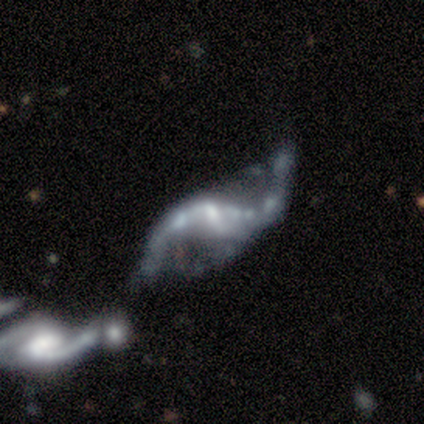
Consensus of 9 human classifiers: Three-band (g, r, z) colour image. It shows a featured or disk galaxy (89%) with no bar (43%), 2 (100%) loose (83%) spiral arms (86%) and a moderate central bulge (43%, tied with small). Merging: major disturbance (38%, tied with merger).